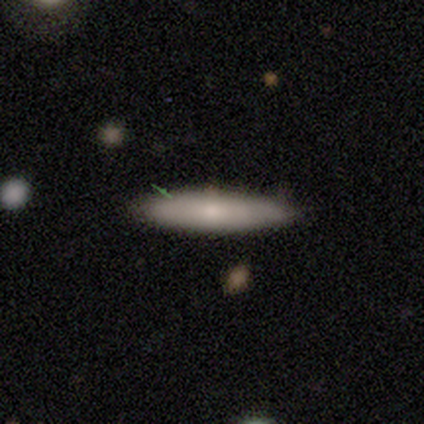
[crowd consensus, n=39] Q: Smooth or featured?
A: smooth (62%); runner-up: featured or disk (36%)
Q: How rounded?
A: cigar-shaped (88%); runner-up: in between (12%)
Q: Merging?
A: none (84%); runner-up: minor disturbance (13%)